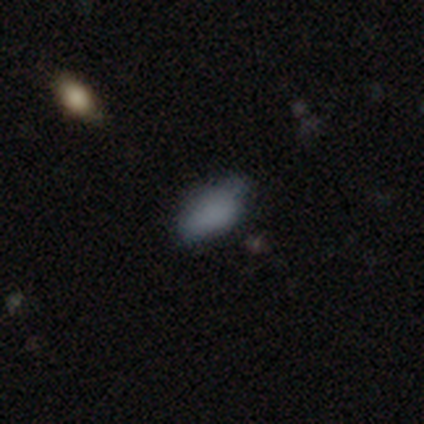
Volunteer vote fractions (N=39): Volunteers were most divided on "merging": none: 62%, minor disturbance: 29%, merger: 6%, major disturbance: 3%. More confident: how rounded — in between (93%); smooth or featured — smooth (74%).